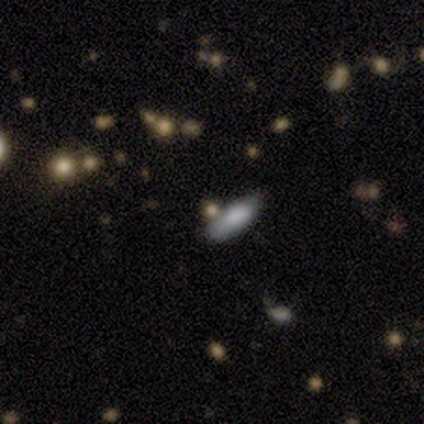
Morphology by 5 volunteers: smooth_or_featured: smooth (p=0.80) [alt: featured or disk p=0.20]
how_rounded: in between (p=0.75) [alt: cigar-shaped p=0.25]
merging: none (p=0.40) [tied with: minor disturbance p=0.40]